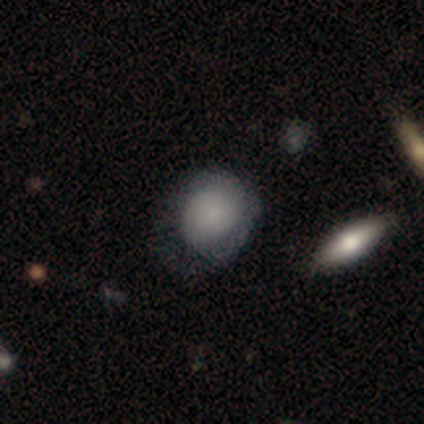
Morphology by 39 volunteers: Overall: smooth (85%). How rounded: round (76%). Merging: minor disturbance (46%; none 35%).